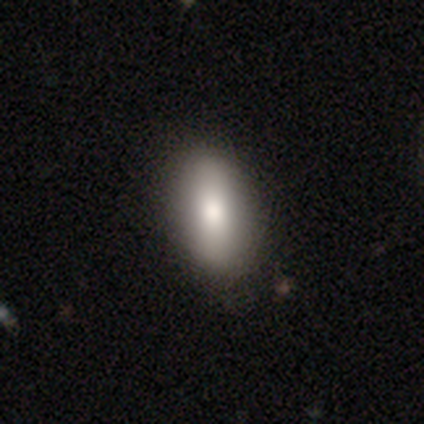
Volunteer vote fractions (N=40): A smooth galaxy with no disk features (78%) that is in between round and cigar-shaped (97%).

Vote fractions:
- Smooth or featured? smooth: 78% / featured or disk: 20% / star or artifact: 2%
- How rounded? in between: 97% / round: 3% / cigar-shaped: 0%
- Merging? none: 67% / minor disturbance: 5% / major disturbance: 0% / merger: 0%